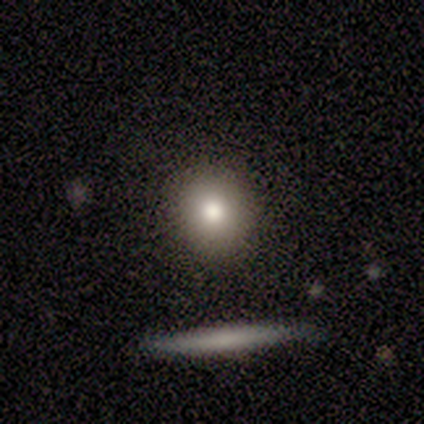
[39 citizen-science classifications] Smooth or featured? smooth (74%)
How rounded? round (90%)
Merging? none (94%)